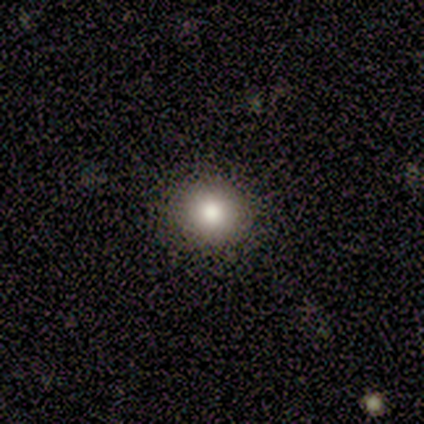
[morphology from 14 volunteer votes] type=smooth (57%); roundness=round (88%); merging=none (77%).